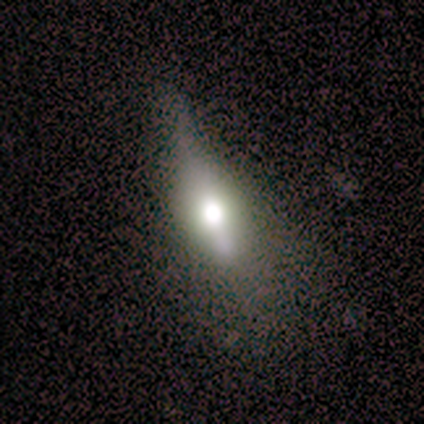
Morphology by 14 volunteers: smooth_or_featured: featured or disk (p=0.64) [alt: smooth p=0.29]
disk_edge_on: yes (p=0.67) [alt: no p=0.33]
edge_on_bulge: rounded (p=1.00)
merging: minor disturbance (p=0.54) [alt: none p=0.31]